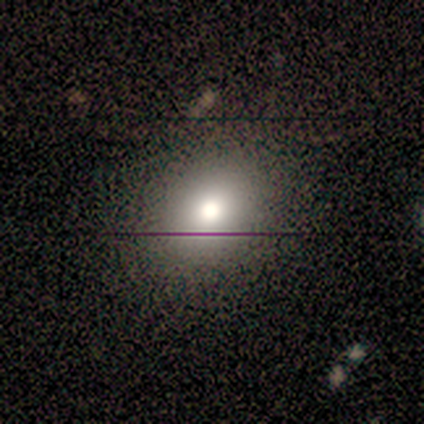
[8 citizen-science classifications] smooth_or_featured: smooth (p=0.62) [alt: featured or disk p=0.25]
how_rounded: round (p=0.80) [alt: in between p=0.20]
merging: none (p=0.86) [alt: minor disturbance p=0.14]